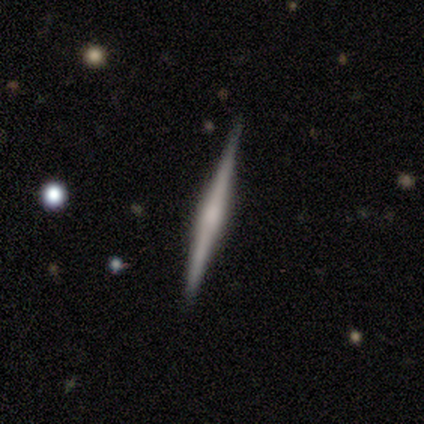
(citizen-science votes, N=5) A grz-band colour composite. It shows a smooth galaxy with no disk features (60%) that is cigar-shaped (100%). Merging: none (100%).